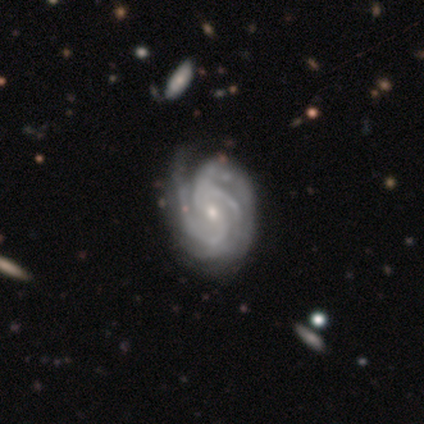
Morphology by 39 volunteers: smooth_or_featured: featured or disk (p=0.97) [alt: star or artifact p=0.03]
disk_edge_on: no (p=1.00)
bar: weak (p=0.50) [alt: no p=0.45]
has_spiral_arms: yes (p=1.00)
spiral_winding: tight (p=0.71) [alt: medium p=0.29]
spiral_arm_count: 3 (p=0.61) [alt: can't tell p=0.21]
bulge_size: small (p=0.66) [alt: moderate p=0.32]
merging: none (p=0.53) [alt: minor disturbance p=0.11]